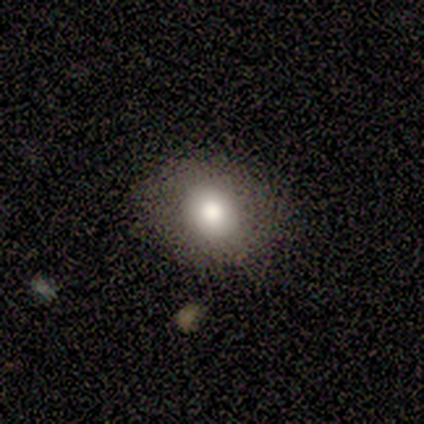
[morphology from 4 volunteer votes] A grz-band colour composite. It shows a smooth galaxy with no disk features (75%) that is in between round and cigar-shaped (67%). Merging: none (100%).